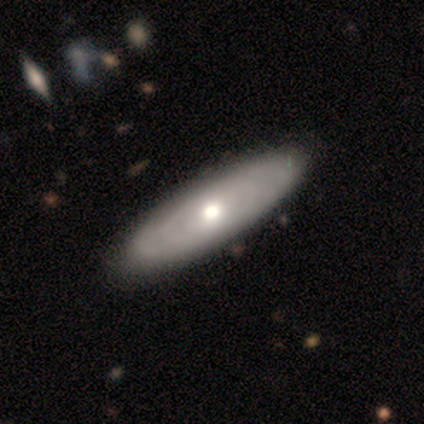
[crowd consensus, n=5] Overall: featured or disk (60%; smooth 40%). Edge-on disk: no (100%). Bar: no (67%; weak 33%). Spiral arms: no (100%). Bulge size: moderate (67%; dominant 33%). Merging: none (100%).